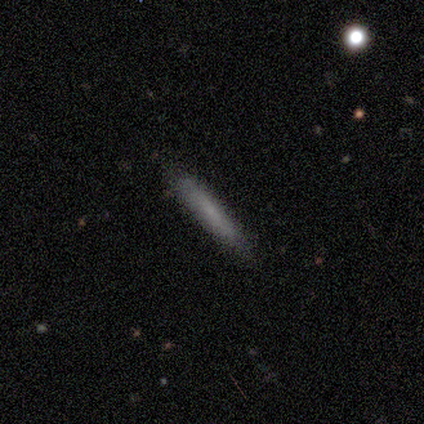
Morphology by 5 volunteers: Volunteers were most divided on "smooth or featured": smooth: 80%, star or artifact: 20%, featured or disk: 0%. More confident: how rounded — cigar-shaped (100%); merging — none (100%).